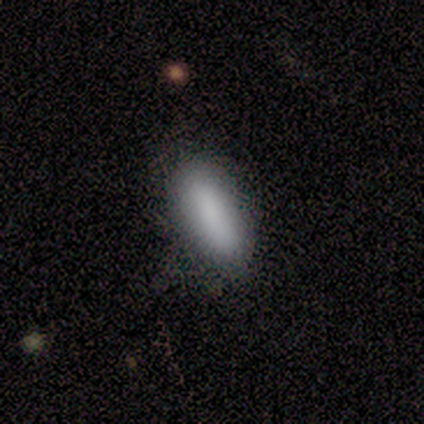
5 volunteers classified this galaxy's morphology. Smooth or featured?
  - smooth: 80% *
  - star or artifact: 20%
  - featured or disk: 0%
How rounded?
  - in between: 75% *
  - cigar-shaped: 25%
  - round: 0%
Merging?
  - none: 50% *
  - minor disturbance: 25%
  - merger: 25%
  - major disturbance: 0%